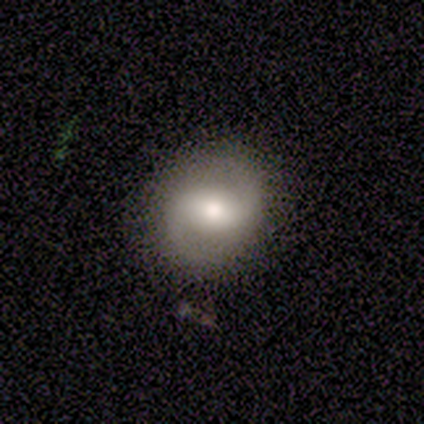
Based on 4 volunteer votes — Smooth or featured: smooth — 50% (tied with featured or disk — 50%)
How rounded: round — 100%
Merging: none — 100%